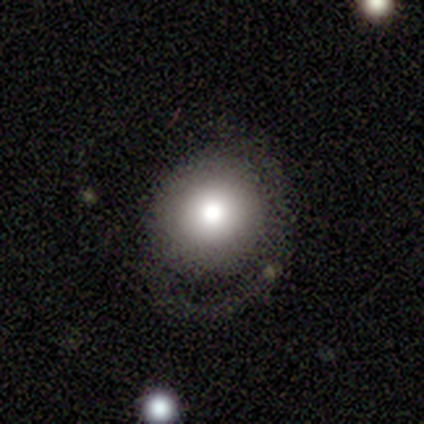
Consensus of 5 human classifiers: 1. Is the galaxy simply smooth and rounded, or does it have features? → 80% smooth, 20% featured or disk, 0% star or artifact.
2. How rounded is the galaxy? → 100% round, 0% in between, 0% cigar-shaped.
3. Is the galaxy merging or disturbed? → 60% none, 40% minor disturbance, 0% major disturbance, 0% merger.